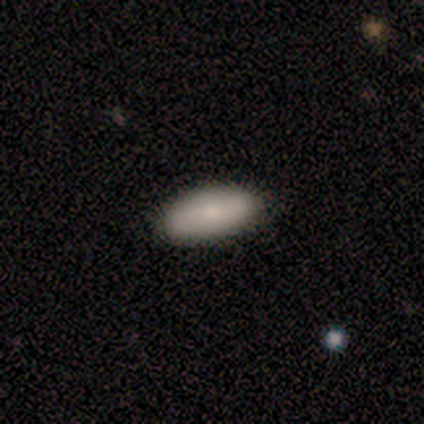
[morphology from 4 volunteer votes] This is likely a smooth galaxy (75%). How rounded: likely in between (67%). Merging: clearly none (100%).